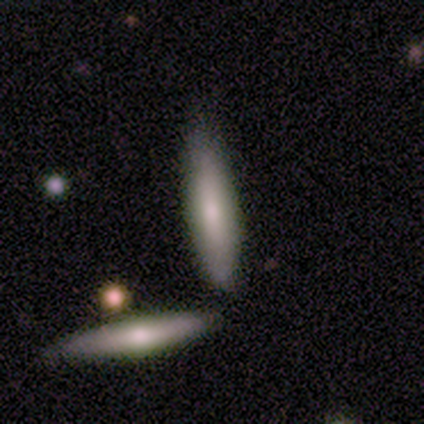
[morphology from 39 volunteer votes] Overall: smooth (51%; featured or disk 41%). How rounded: cigar-shaped (85%). Merging: none (58%; minor disturbance 22%).